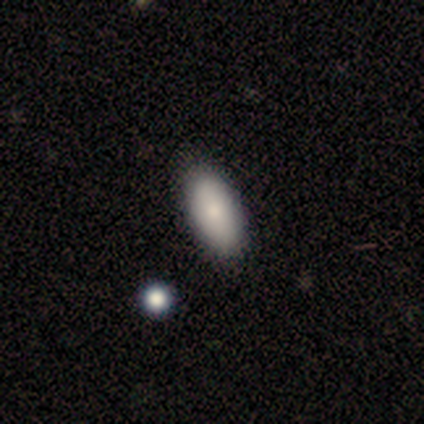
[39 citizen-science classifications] Volunteers were most divided on "merging": none: 63%, minor disturbance: 5%, merger: 5%, major disturbance: 0%. More confident: how rounded — in between (94%); smooth or featured — smooth (82%).